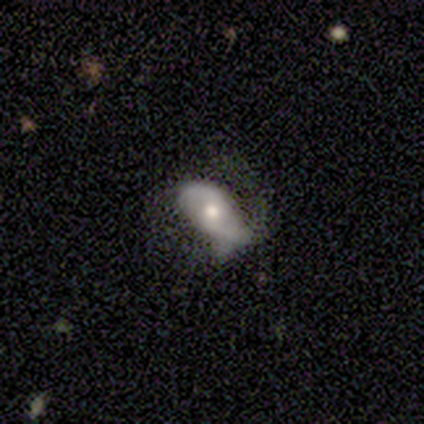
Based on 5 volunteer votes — Volunteers were most divided on "bar" (2-way tie): weak: 50%, no: 50%, strong: 0%; "spiral winding" (2-way tie): tight: 50%, loose: 50%, medium: 0%; "merging" (2-way tie): none: 40%, minor disturbance: 40%, major disturbance: 20%, merger: 0%. More confident: spiral arms — yes (100%); spiral arm count — 2 (100%); bulge size — moderate (100%); edge-on disk — no (67%); smooth or featured — featured or disk (60%).